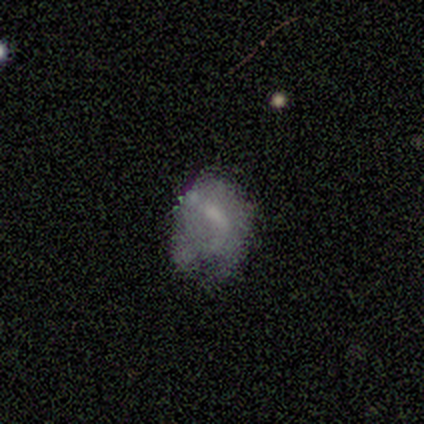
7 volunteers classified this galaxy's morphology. Q: Smooth or featured?
A: smooth (71%); runner-up: featured or disk (29%)
Q: How rounded?
A: in between (60%); runner-up: round (40%)
Q: Merging?
A: major disturbance (43%); runner-up: none (29%)